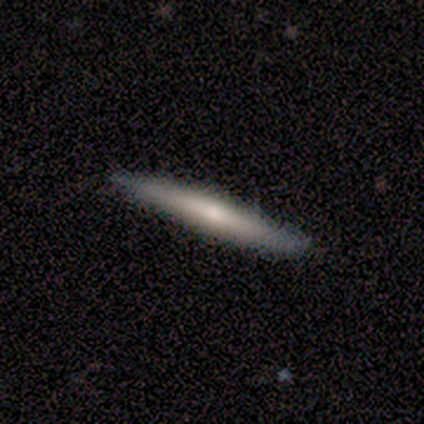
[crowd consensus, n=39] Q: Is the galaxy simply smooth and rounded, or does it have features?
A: smooth — 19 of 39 (49%, tied with featured or disk).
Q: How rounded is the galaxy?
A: cigar-shaped — 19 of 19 (100%).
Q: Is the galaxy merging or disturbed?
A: none — 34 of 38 (89%).